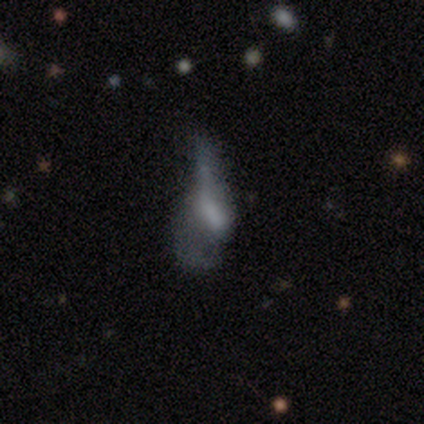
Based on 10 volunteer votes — Smooth or featured? featured or disk (60%)
Edge-on disk? no (100%)
Bar? weak (83%)
Spiral arms? no (67%)
Bulge size? large (33%, tied with small)
Merging? major disturbance (67%)